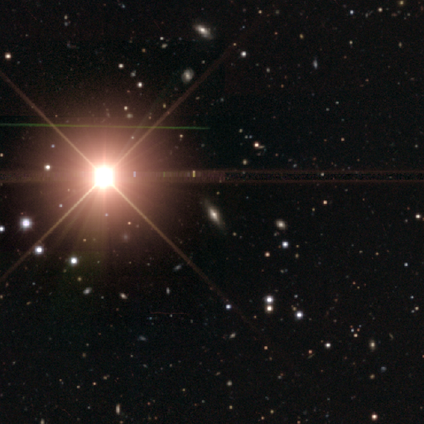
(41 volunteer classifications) Overall: star or artifact (71%).